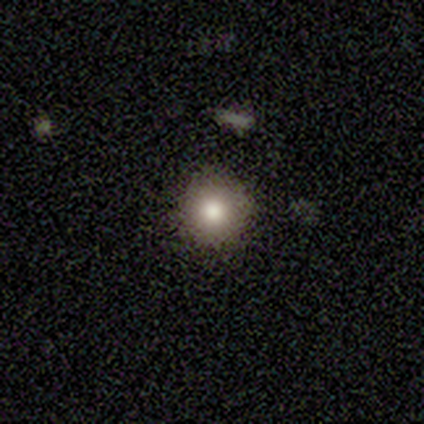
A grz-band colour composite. It shows a smooth galaxy with no disk features (78%) that is round (100%). Merging: none (86%).